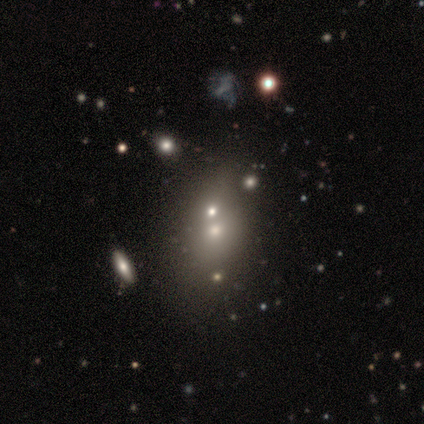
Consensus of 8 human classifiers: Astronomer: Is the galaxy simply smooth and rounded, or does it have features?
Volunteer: smooth — 50%.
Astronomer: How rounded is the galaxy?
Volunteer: in between — 75%.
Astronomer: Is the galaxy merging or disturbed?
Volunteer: merger — 50% (runner-up: none, 33%).